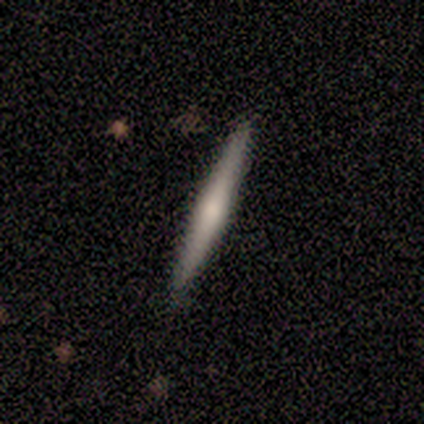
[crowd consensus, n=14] A featured or disk galaxy (64%) viewed edge-on (100%) with a rounded central bulge (89%).

Vote fractions:
- Smooth or featured? featured or disk: 64% / smooth: 36% / star or artifact: 0%
- Edge-on disk? yes: 100% / no: 0%
- Edge-on bulge? rounded: 89% / none: 11% / boxy: 0%
- Merging? none: 100% / minor disturbance: 0% / major disturbance: 0% / merger: 0%